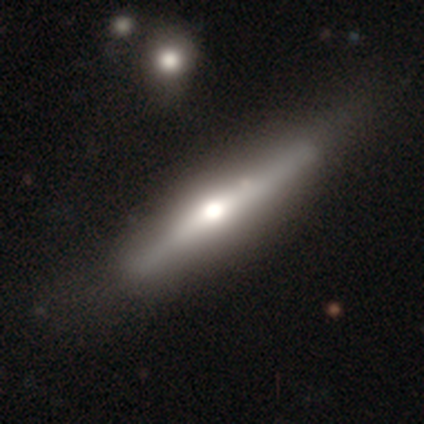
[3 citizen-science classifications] Smooth or featured? 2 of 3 (67%) said featured or disk. Edge-on disk? 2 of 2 (100%) said yes. Edge-on bulge? 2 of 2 (100%) said rounded. Merging? 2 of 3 (67%) said none.